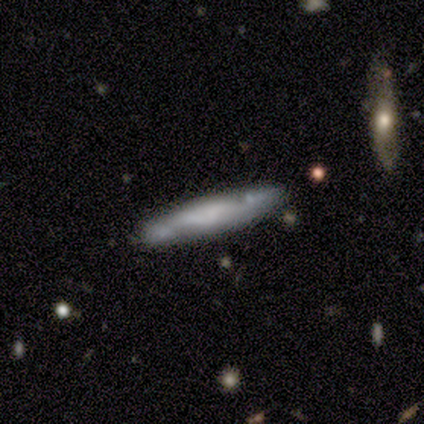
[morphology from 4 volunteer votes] Smooth or featured? 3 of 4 (75%) said featured or disk. Edge-on disk? 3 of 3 (100%) said yes. Edge-on bulge? 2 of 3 (67%) said rounded. Merging? 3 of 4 (75%) said none.